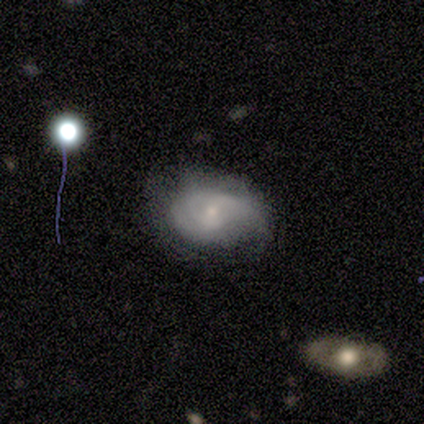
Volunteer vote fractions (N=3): Smooth or featured: featured or disk — 67% (smooth — 33%)
Edge-on disk: no — 100%
Bar: weak — 50% (tied with no — 50%)
Spiral arms: yes — 100%
Spiral winding: tight — 50% (tied with medium — 50%)
Spiral arm count: can't tell — 100%
Bulge size: small — 100%
Merging: none — 33% (tied with minor disturbance — 33%; major disturbance — 33%)